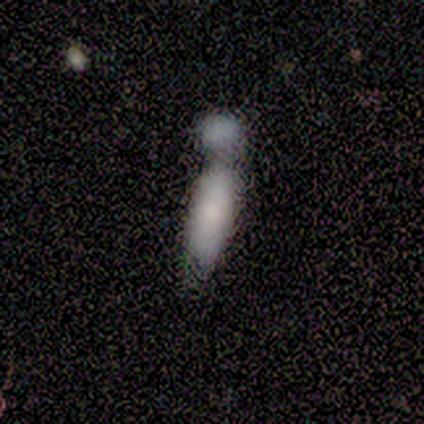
smooth_or_featured: smooth (p=0.76) [alt: featured or disk p=0.24]
how_rounded: cigar-shaped (p=0.56) [alt: in between p=0.44]
merging: merger (p=0.52) [alt: none p=0.33]